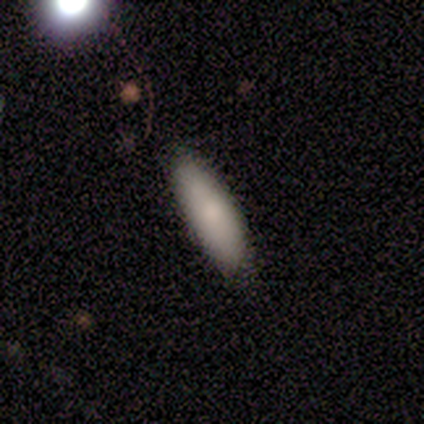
This appears to be a smooth galaxy with no disk features (80%) that is in between round and cigar-shaped (75%). Merging: none (100%).